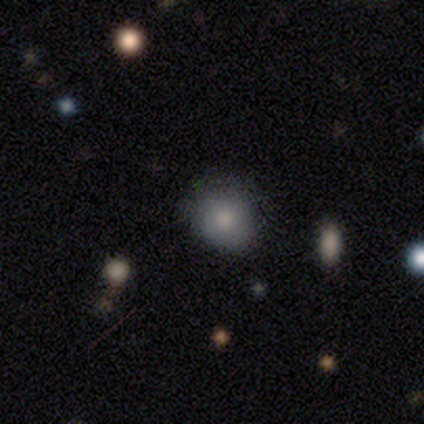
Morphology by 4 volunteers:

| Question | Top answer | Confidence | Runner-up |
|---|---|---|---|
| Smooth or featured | smooth | 100% | — |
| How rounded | round | 50% | tied: in between (50%) |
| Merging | none | 75% | major disturbance (25%) |